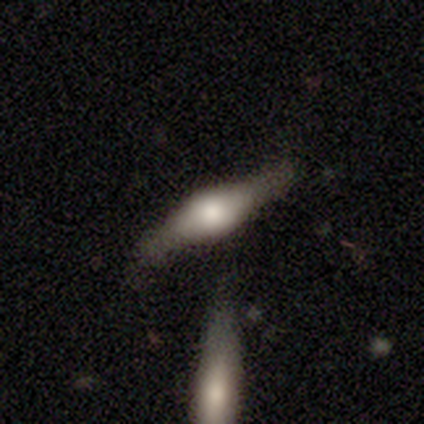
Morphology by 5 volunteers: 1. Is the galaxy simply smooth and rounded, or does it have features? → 80% featured or disk, 20% smooth, 0% star or artifact.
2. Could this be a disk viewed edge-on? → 100% yes, 0% no.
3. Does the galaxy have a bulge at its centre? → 100% rounded, 0% boxy, 0% none.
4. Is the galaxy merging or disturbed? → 40% merger, 20% none, 20% minor disturbance, 20% major disturbance.